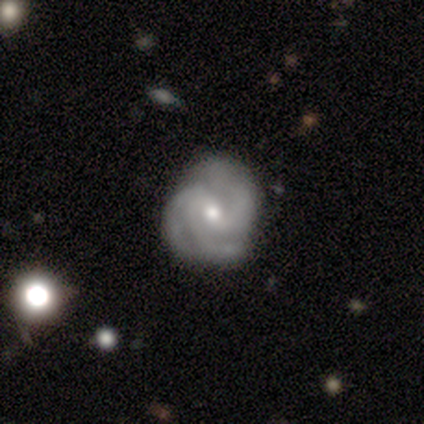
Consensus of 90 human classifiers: This appears to be a featured or disk galaxy (86%) with no bar (53%), 3 (79%) tight (56%) spiral arms (97%) and a small central bulge (57%). Merging: none (82%).